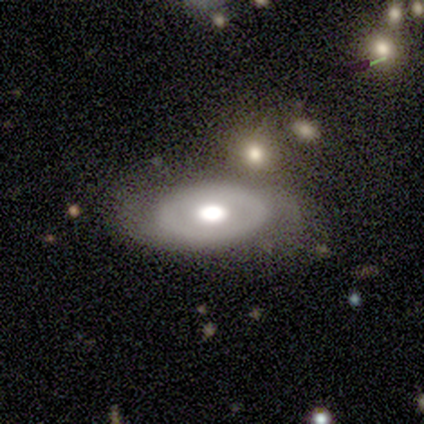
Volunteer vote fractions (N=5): featured or disk 80%, smooth 20%, star or artifact 0%. Down the decision tree: edge-on disk — no (100%); bar — no (75%); spiral arms — no (75%); bulge size — large (100%); merging — none (40%, tied with minor disturbance).